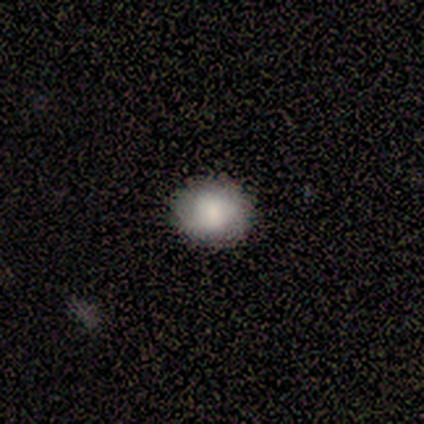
Q: Smooth or featured?
A: smooth (100%)
Q: How rounded?
A: round (100%)
Q: Merging?
A: none (60%); runner-up: minor disturbance (40%)